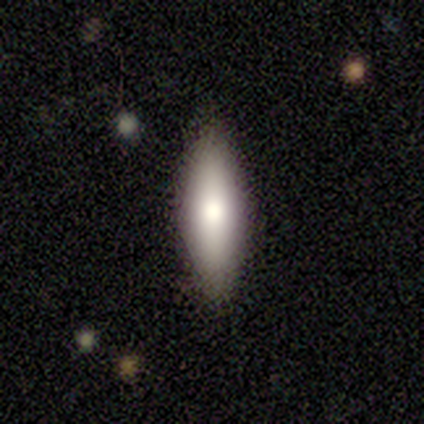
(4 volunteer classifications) Smooth or featured? smooth (50%, tied with featured or disk)
How rounded? in between (50%, tied with cigar-shaped)
Merging? none (100%)